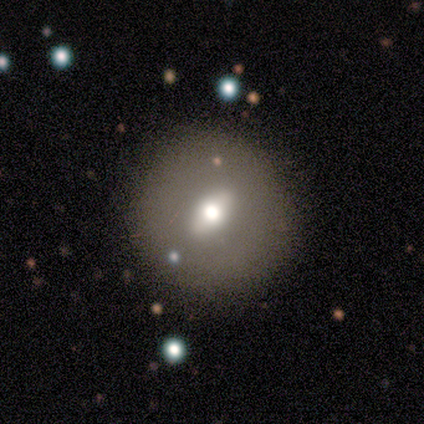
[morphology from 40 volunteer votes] Volunteers were most divided on "smooth or featured": featured or disk: 52%, smooth: 40%, star or artifact: 8%. Remaining: spiral arms — no (95%); edge-on disk — no (90%); merging — none (86%); bulge size — moderate (74%); bar — no (47%).